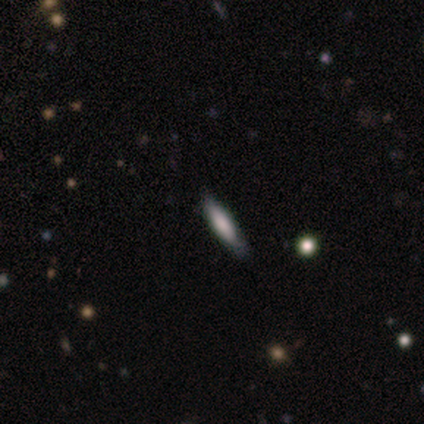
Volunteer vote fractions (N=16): A smooth galaxy with no disk features (69%) that is in between round and cigar-shaped (55%).

Vote fractions:
- Smooth or featured? smooth: 69% / featured or disk: 25% / star or artifact: 6%
- How rounded? in between: 55% / cigar-shaped: 45% / round: 0%
- Merging? none: 87% / minor disturbance: 13% / major disturbance: 0% / merger: 0%